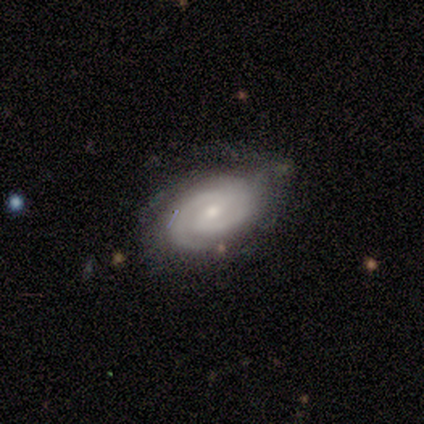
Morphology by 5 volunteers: type=featured or disk (100%); edge-on=no (80%); bar=weak (100%); spiral arms=yes (100%); winding=tight (100%); arm count=2 (50%); bulge=small (75%); merging=none (60%).